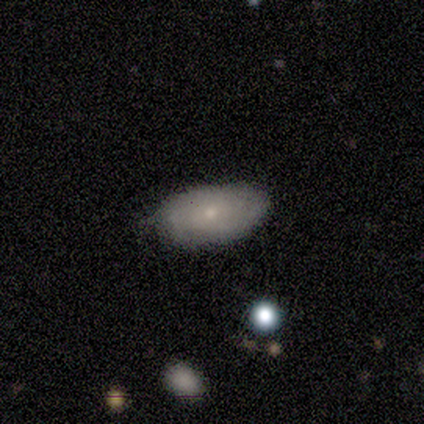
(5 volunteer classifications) Q: Smooth or featured?
A: smooth (80%); runner-up: featured or disk (20%)
Q: How rounded?
A: in between (100%)
Q: Merging?
A: none (80%); runner-up: minor disturbance (20%)